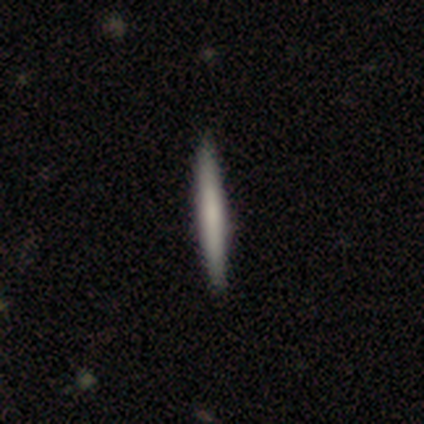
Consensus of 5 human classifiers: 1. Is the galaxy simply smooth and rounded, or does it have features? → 60% featured or disk, 40% smooth, 0% star or artifact.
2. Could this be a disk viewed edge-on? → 100% yes, 0% no.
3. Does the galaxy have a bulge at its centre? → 100% none, 0% boxy, 0% rounded.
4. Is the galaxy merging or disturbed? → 80% none, 20% minor disturbance, 0% major disturbance, 0% merger.